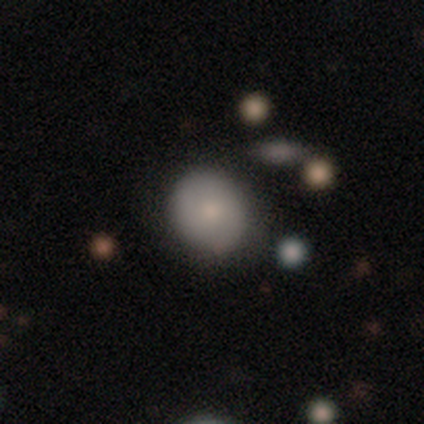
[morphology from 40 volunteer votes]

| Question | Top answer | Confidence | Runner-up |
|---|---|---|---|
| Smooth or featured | smooth | 68% | featured or disk (18%) |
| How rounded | round | 85% | in between (11%) |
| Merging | none | 82% | minor disturbance (9%) |